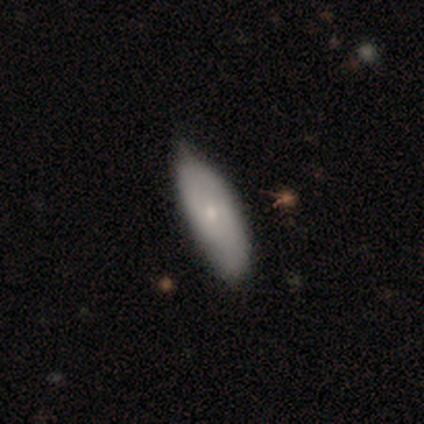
smooth-or-featured: smooth: 50% (tied) | featured or disk: 50% (tied) | star or artifact: 0%
  how-rounded: in between: 100% | round: 0% | cigar-shaped: 0%
  merging: none: 50% (tied) | minor disturbance: 50% (tied) | major disturbance: 0% | merger: 0%